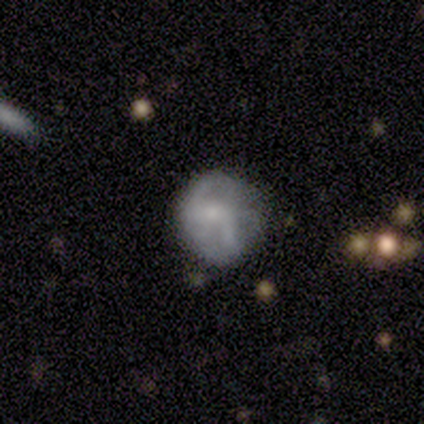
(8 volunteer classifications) Smooth or featured?
  - featured or disk: 62% *
  - smooth: 38%
  - star or artifact: 0%
Edge-on disk?
  - no: 100% *
  - yes: 0%
Bar?
  - no: 60% *
  - weak: 40%
  - strong: 0%
Spiral arms?
  - yes: 60% *
  - no: 40%
Spiral winding?
  - loose: 67% *
  - medium: 33%
  - tight: 0%
Spiral arm count?
  - 2: 100% *
  - 1: 0%
  - 3: 0%
  - 4: 0%
  - more than 4: 0%
  - can't tell: 0%
Bulge size?
  - small: 60% *
  - moderate: 40%
  - dominant: 0%
  - large: 0%
  - none: 0%
Merging?
  - none: 62% *
  - minor disturbance: 25%
  - merger: 12%
  - major disturbance: 0%